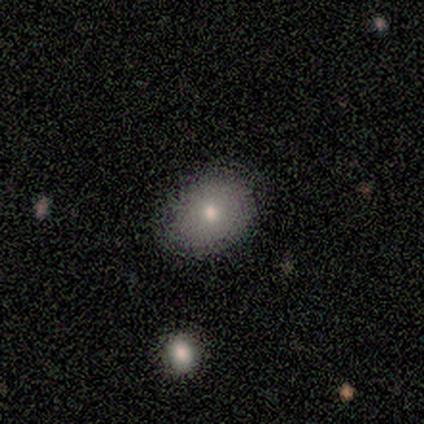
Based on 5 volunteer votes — Smooth or featured? smooth (60%)
How rounded? in between (67%)
Merging? none (80%)